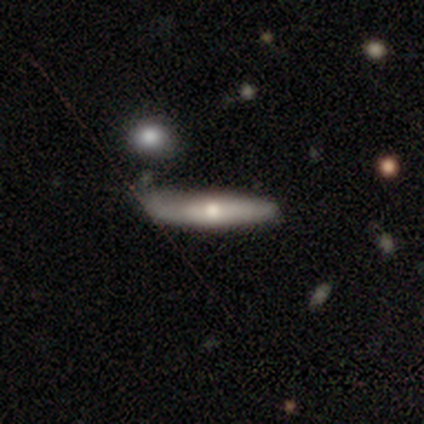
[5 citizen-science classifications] smooth-or-featured: featured or disk: 80% | smooth: 20% | star or artifact: 0%
  disk-edge-on: yes: 50% (tied) | no: 50% (tied)
    edge-on-bulge: rounded: 100% | boxy: 0% | none: 0%
  merging: minor disturbance: 60% | none: 40% | major disturbance: 0% | merger: 0%